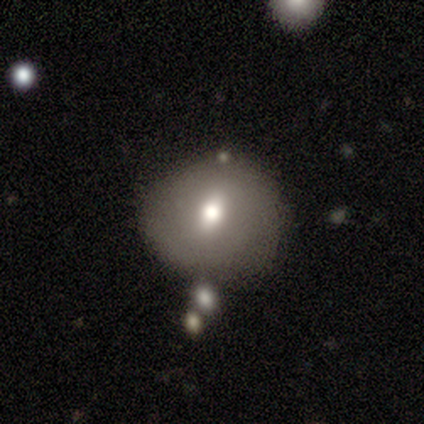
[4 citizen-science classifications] This is possibly a smooth galaxy (50%, tied with featured or disk). How rounded: possibly round (50%, tied with in between). Merging: possibly none (50%, tied with minor disturbance).